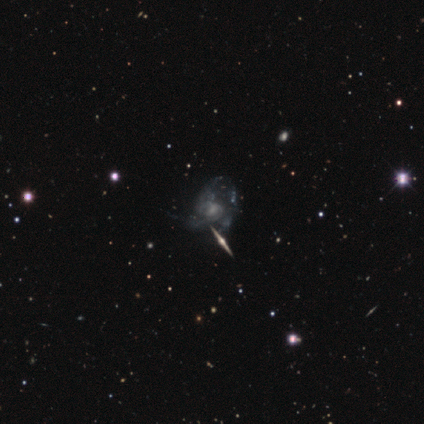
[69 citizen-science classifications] smooth-or-featured: featured or disk: 83% | smooth: 14% | star or artifact: 3%
  disk-edge-on: no: 75% | yes: 25%
    bar: no: 72% | weak: 28% | strong: 0%
    has-spiral-arms: yes: 84% | no: 16%
      spiral-winding: medium: 44% | tight: 28% | loose: 28%
      spiral-arm-count: can't tell: 58% | 3: 19% | 2: 14% | 4: 6% | 1: 3% | more than 4: 0%
    bulge-size: small: 37% | moderate: 30% | none: 28% | large: 5% | dominant: 0%
  merging: major disturbance: 39% | none: 36% | minor disturbance: 16% | merger: 9%